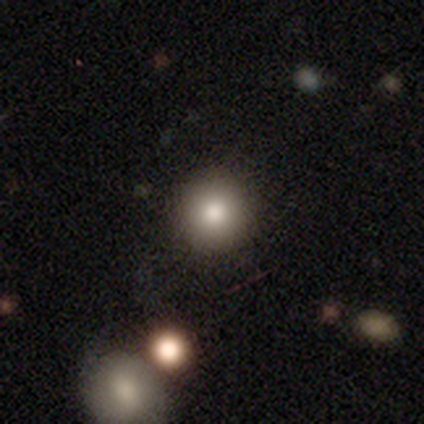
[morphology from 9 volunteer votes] Smooth or featured: smooth — 67% (star or artifact — 22%)
How rounded: round — 100%
Merging: none — 86% (merger — 14%)